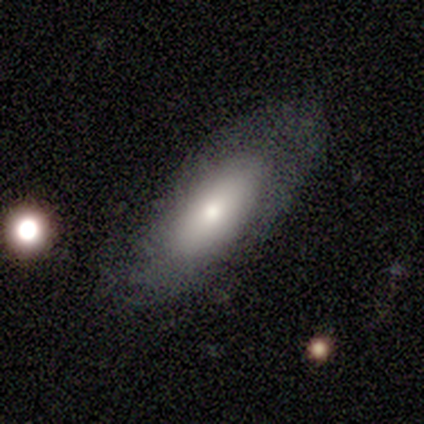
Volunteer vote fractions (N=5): smooth_or_featured: smooth (p=0.80) [alt: star or artifact p=0.20]
how_rounded: in between (p=1.00)
merging: none (p=0.50) [alt: minor disturbance p=0.25]